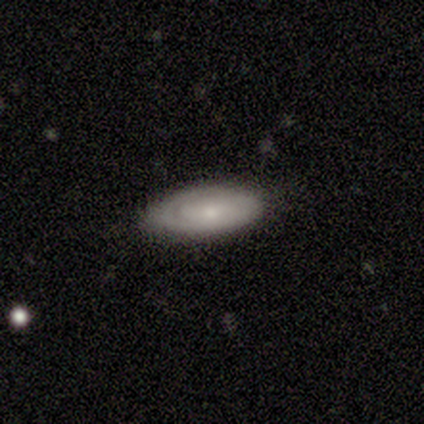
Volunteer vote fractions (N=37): A featured or disk galaxy (54%) with no bar (76%), 1 (40%, tied with can't tell) tight (67%) spiral arms (88%) and a small central bulge (47%).

Vote fractions:
- Smooth or featured? featured or disk: 54% / smooth: 43% / star or artifact: 3%
- Edge-on disk? no: 85% / yes: 15%
- Bar? no: 76% / weak: 18% / strong: 6%
- Spiral arms? yes: 88% / no: 12%
- Spiral winding? tight: 67% / medium: 27% / loose: 7%
- Spiral arm count? 1: 40% (tied) / can't tell: 40% (tied) / 2: 13% / 3: 7% / 4: 0% / more than 4: 0%
- Bulge size? small: 47% / moderate: 41% / none: 12% / dominant: 0% / large: 0%
- Merging? none: 81% / minor disturbance: 14% / major disturbance: 6% / merger: 0%